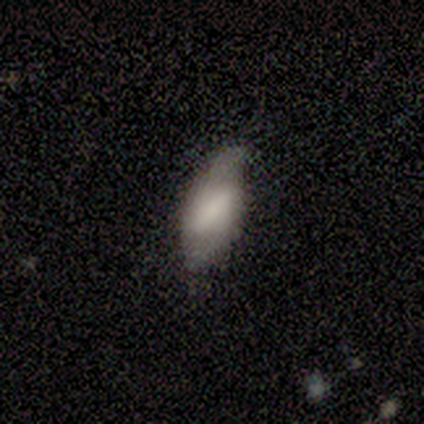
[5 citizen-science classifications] smooth-or-featured: featured or disk: 60% | smooth: 40% | star or artifact: 0%
  disk-edge-on: no: 100% | yes: 0%
    bar: weak: 67% | strong: 33% | no: 0%
    has-spiral-arms: yes: 100% | no: 0%
      spiral-winding: loose: 67% | tight: 33% | medium: 0%
      spiral-arm-count: 2: 100% | 1: 0% | 3: 0% | 4: 0% | more than 4: 0% | can't tell: 0%
    bulge-size: none: 67% | moderate: 33% | dominant: 0% | large: 0% | small: 0%
  merging: none: 80% | minor disturbance: 20% | major disturbance: 0% | merger: 0%